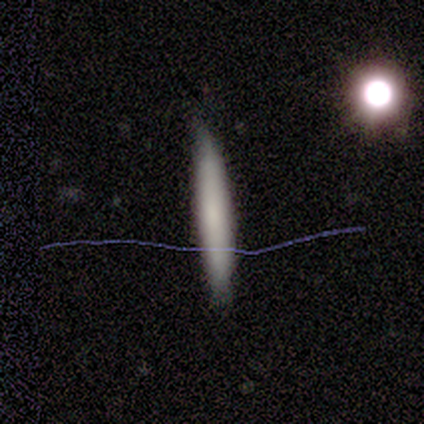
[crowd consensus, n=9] This appears to be a featured or disk galaxy (67%) viewed edge-on (100%) with no central bulge (67%). Merging: none (78%).